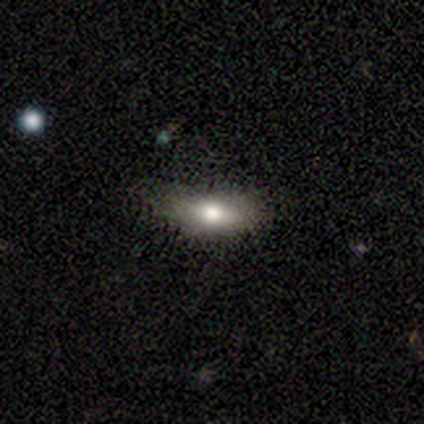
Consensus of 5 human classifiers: Smooth or featured?
  - smooth: 80% *
  - featured or disk: 20%
  - star or artifact: 0%
How rounded?
  - in between: 100% *
  - round: 0%
  - cigar-shaped: 0%
Merging?
  - minor disturbance: 80% *
  - none: 20%
  - major disturbance: 0%
  - merger: 0%